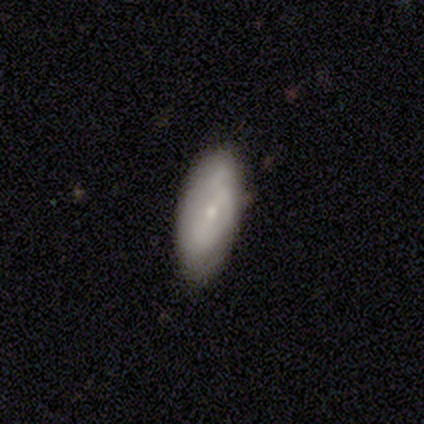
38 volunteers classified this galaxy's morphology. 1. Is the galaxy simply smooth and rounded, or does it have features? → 47% featured or disk, 42% smooth, 11% star or artifact.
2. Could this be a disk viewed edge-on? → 100% no, 0% yes.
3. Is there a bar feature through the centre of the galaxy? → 56% no, 22% strong, 22% weak.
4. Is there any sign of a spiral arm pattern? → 56% yes, 44% no.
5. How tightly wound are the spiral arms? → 50% tight, 40% medium, 10% loose.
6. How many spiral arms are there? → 50% can't tell, 20% 1, 20% 2, 10% 3, 0% 4, 0% more than 4.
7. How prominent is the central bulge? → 89% small, 11% moderate, 0% dominant, 0% large, 0% none.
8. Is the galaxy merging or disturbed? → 85% none, 9% minor disturbance, 3% major disturbance, 3% merger.